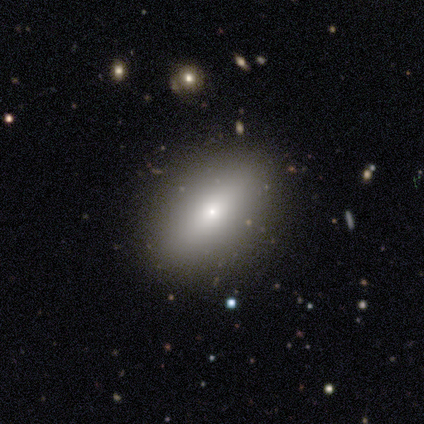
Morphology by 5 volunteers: Q: Smooth or featured?
A: smooth (80%); runner-up: star or artifact (20%)
Q: How rounded?
A: in between (75%); runner-up: round (25%)
Q: Merging?
A: none (100%)